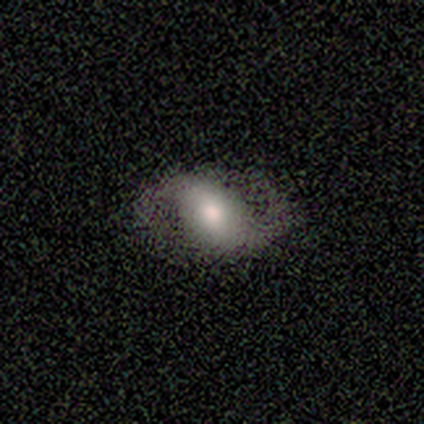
featured or disk 80%, star or artifact 20%, smooth 0%. Down the decision tree: edge-on disk — no (100%); bar — weak (50%); spiral arms — yes (100%); spiral arm count — 2 (100%); spiral winding — tight (50%); bulge size — moderate (50%, tied with small); merging — none (100%).